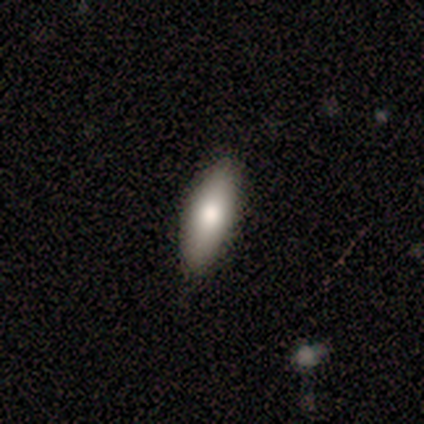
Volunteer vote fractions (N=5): Q: Smooth or featured?
A: smooth (100%)
Q: How rounded?
A: cigar-shaped (100%)
Q: Merging?
A: none (80%); runner-up: major disturbance (20%)